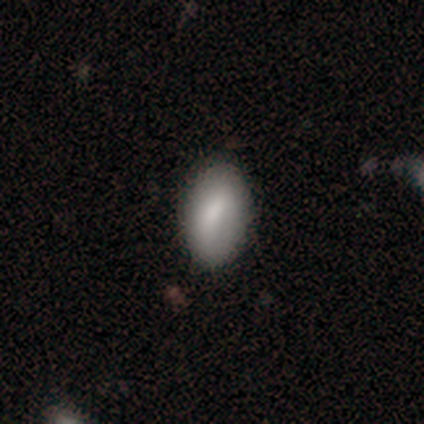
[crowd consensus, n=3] Morphology: type=smooth (100%); roundness=in between (100%); merging=none (100%).